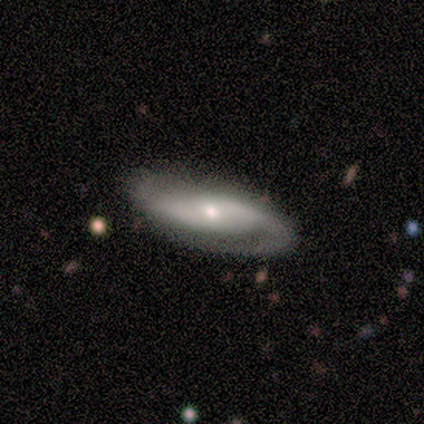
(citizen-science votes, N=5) Smooth or featured?
  - featured or disk: 80% *
  - smooth: 20%
  - star or artifact: 0%
Edge-on disk?
  - no: 100% *
  - yes: 0%
Bar?
  - strong: 50% * (tied)
  - no: 50% * (tied)
  - weak: 0%
Spiral arms?
  - yes: 100% *
  - no: 0%
Spiral winding?
  - tight: 50% * (tied)
  - medium: 50% * (tied)
  - loose: 0%
Spiral arm count?
  - 2: 100% *
  - 1: 0%
  - 3: 0%
  - 4: 0%
  - more than 4: 0%
  - can't tell: 0%
Bulge size?
  - small: 50% *
  - large: 25%
  - moderate: 25%
  - dominant: 0%
  - none: 0%
Merging?
  - none: 100% *
  - minor disturbance: 0%
  - major disturbance: 0%
  - merger: 0%